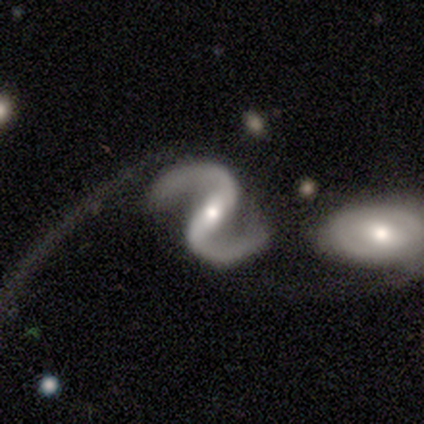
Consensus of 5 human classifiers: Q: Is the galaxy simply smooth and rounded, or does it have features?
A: featured or disk — 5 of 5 (100%).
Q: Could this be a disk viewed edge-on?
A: no — 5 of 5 (100%).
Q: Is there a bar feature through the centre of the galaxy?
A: weak — 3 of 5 (60%).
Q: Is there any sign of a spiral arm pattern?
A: yes — 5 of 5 (100%).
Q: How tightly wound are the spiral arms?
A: medium — 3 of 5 (60%).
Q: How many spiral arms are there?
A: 2 — 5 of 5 (100%).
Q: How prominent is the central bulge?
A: small — 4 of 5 (80%).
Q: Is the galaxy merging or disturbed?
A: none — 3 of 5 (60%).